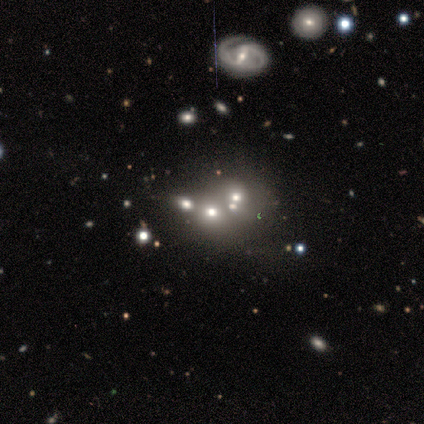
This appears to be a star or artifact, not a galaxy (60%).